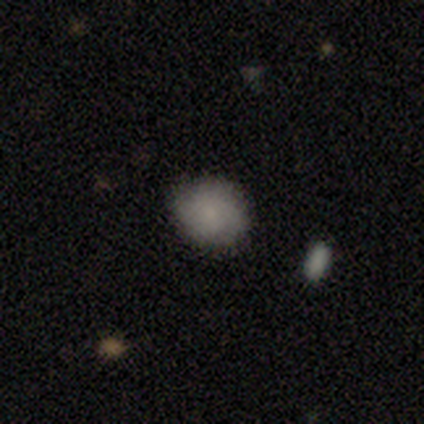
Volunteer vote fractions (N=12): Smooth or featured: smooth — 83% (featured or disk — 17%)
How rounded: round — 70% (in between — 30%)
Merging: none — 83% (minor disturbance — 8%)